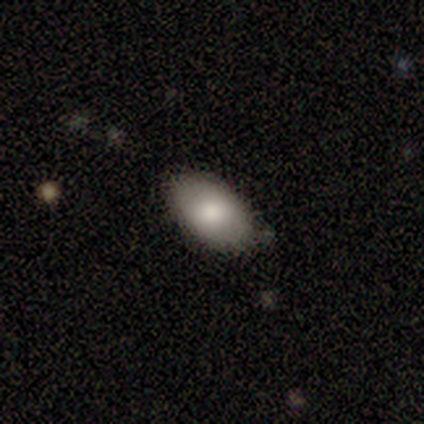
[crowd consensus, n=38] Smooth or featured: smooth — 82% (featured or disk — 13%)
How rounded: in between — 90% (cigar-shaped — 10%)
Merging: none — 81% (minor disturbance — 17%)